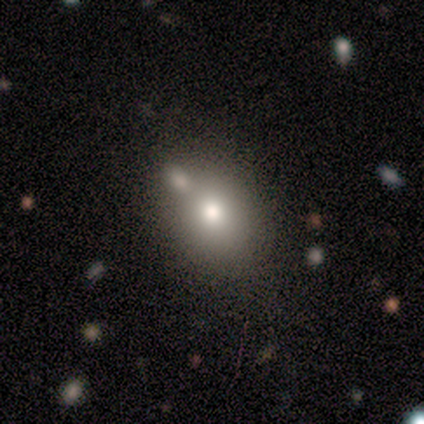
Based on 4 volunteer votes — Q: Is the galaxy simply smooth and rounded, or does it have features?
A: smooth — 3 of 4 (75%).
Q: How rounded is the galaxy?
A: round — 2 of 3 (67%).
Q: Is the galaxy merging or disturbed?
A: none — 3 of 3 (100%).